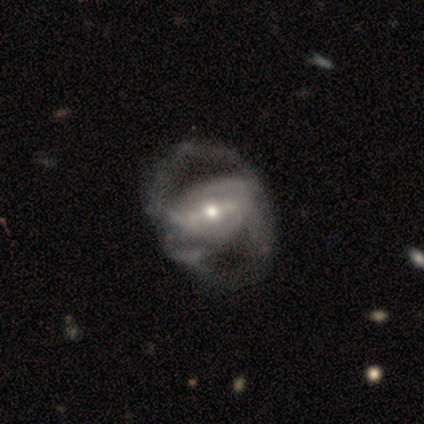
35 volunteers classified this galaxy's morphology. Volunteers were most divided on "merging": none: 29%, major disturbance: 24%, minor disturbance: 15%, merger: 3%. More confident: edge-on disk — no (100%); smooth or featured — featured or disk (94%); spiral arm count — 2 (68%); spiral winding — medium (63%); spiral arms — yes (58%); bulge size — moderate (58%); bar — strong (52%).